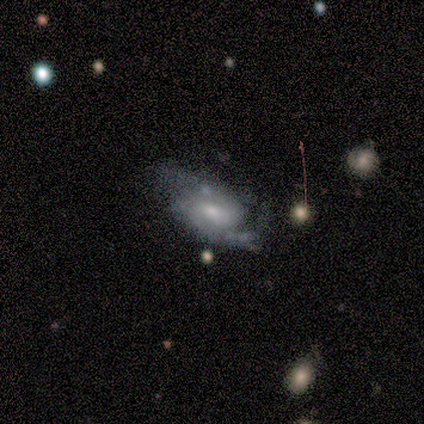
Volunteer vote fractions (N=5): Overall: featured or disk (100%). Edge-on disk: no (100%). Bar: weak (60%; strong 20%). Spiral arms: yes (80%). Spiral arm count: 2 (75%). Spiral winding: medium (75%). Bulge size: small (100%). Merging: minor disturbance (40%, tied with major disturbance).